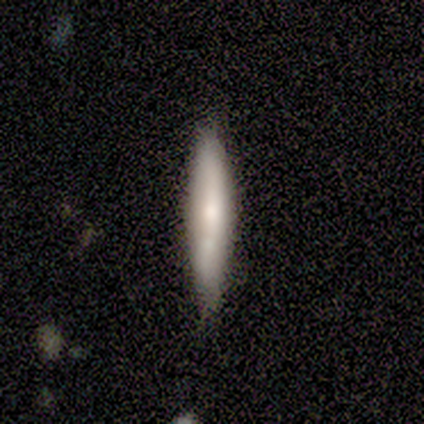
Overall: smooth (100%). How rounded: cigar-shaped (100%). Merging: none (100%).